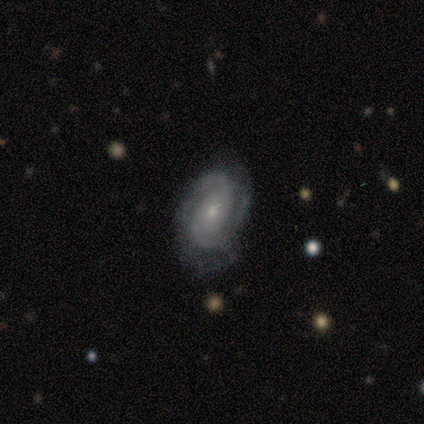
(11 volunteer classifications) Smooth or featured? featured or disk (73%)
Edge-on disk? no (100%)
Bar? no (88%)
Spiral arms? yes (100%)
Spiral winding? tight (38%, tied with medium)
Spiral arm count? 2 (62%)
Bulge size? small (62%)
Merging? none (73%)